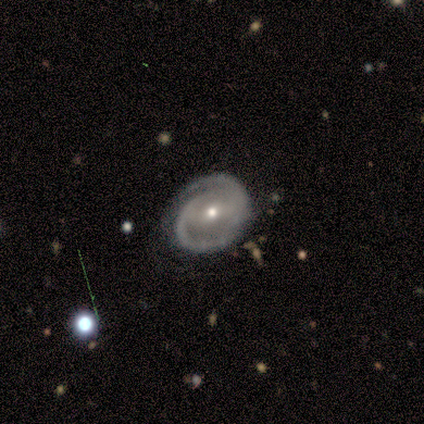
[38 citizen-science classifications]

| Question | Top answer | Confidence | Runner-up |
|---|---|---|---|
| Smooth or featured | featured or disk | 92% | smooth (5%) |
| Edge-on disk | no | 94% | yes (6%) |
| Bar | weak | 48% | strong (27%) |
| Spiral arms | yes | 100% | — |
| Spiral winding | tight | 48% | medium (36%) |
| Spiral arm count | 2 | 76% | can't tell (12%) |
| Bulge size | small | 64% | moderate (30%) |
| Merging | none | 73% | minor disturbance (14%) |